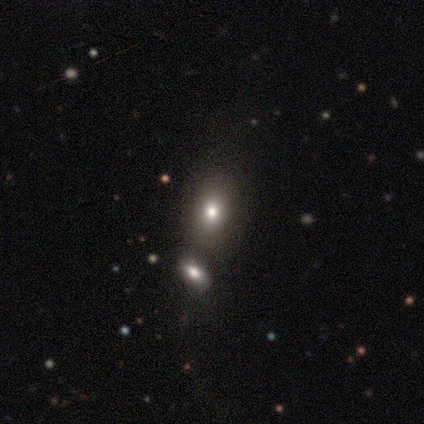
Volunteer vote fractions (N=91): Volunteers were most divided on "merging": none: 53%, merger: 34%, minor disturbance: 11%, major disturbance: 3%. More confident: smooth or featured — smooth (77%); how rounded — in between (66%).